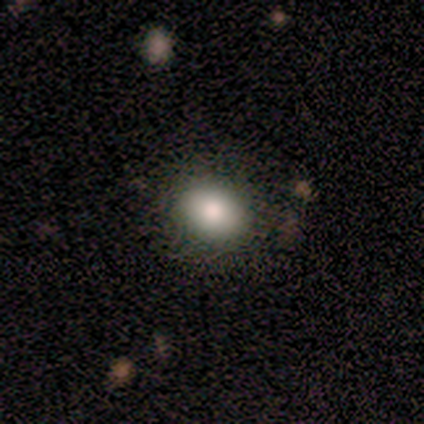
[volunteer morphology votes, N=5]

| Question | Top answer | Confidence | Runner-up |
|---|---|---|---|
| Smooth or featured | smooth | 80% | star or artifact (20%) |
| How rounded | round | 50% | tied: in between (50%) |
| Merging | none | 100% | — |